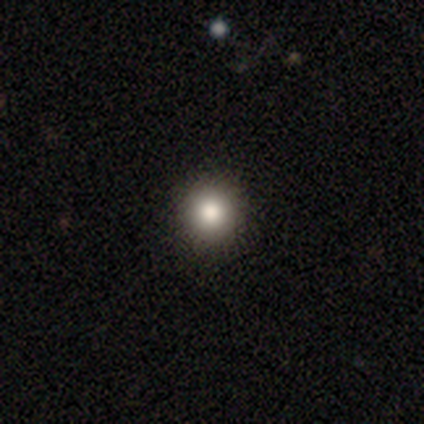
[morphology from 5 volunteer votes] Smooth or featured?
  - smooth: 100% *
  - featured or disk: 0%
  - star or artifact: 0%
How rounded?
  - round: 100% *
  - in between: 0%
  - cigar-shaped: 0%
Merging?
  - none: 60% *
  - minor disturbance: 20%
  - major disturbance: 20%
  - merger: 0%